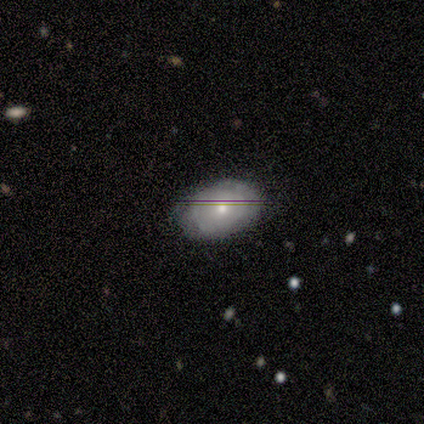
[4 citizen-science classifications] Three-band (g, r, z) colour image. It shows a smooth galaxy with no disk features (75%) that is in between round and cigar-shaped (67%). Merging: none (75%).